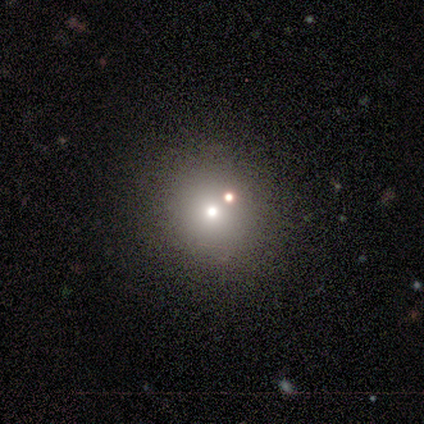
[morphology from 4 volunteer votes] This is likely a star or artifact rather than a galaxy (75%).